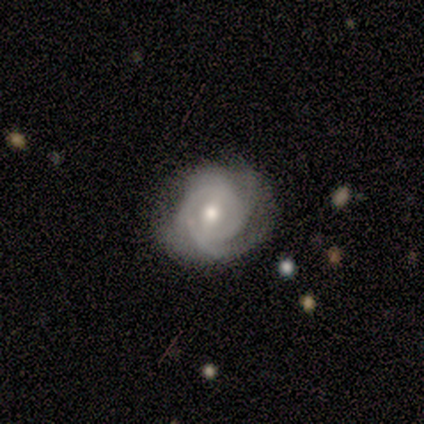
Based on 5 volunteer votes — Smooth or featured?
  - featured or disk: 80% *
  - smooth: 20%
  - star or artifact: 0%
Edge-on disk?
  - no: 100% *
  - yes: 0%
Bar?
  - no: 50% *
  - strong: 25%
  - weak: 25%
Spiral arms?
  - yes: 100% *
  - no: 0%
Spiral winding?
  - tight: 50% * (tied)
  - medium: 50% * (tied)
  - loose: 0%
Spiral arm count?
  - 1: 25% * (tied)
  - 2: 25% * (tied)
  - 3: 25% * (tied)
  - can't tell: 25% * (tied)
  - 4: 0%
  - more than 4: 0%
Bulge size?
  - moderate: 75% *
  - large: 25%
  - dominant: 0%
  - small: 0%
  - none: 0%
Merging?
  - none: 80% *
  - minor disturbance: 20%
  - major disturbance: 0%
  - merger: 0%